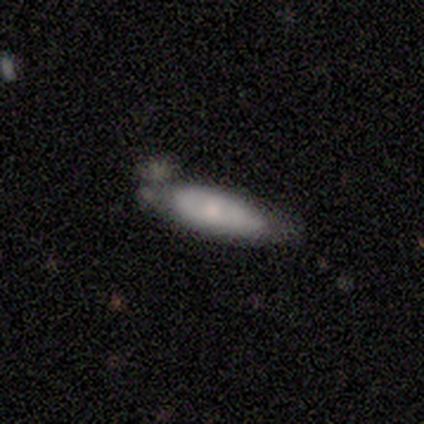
Morphology: type=smooth (100%); roundness=in between (75%); merging=none (75%).